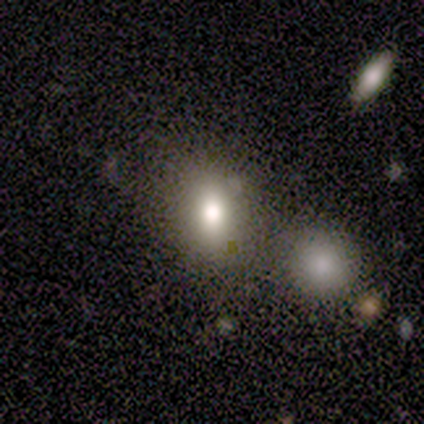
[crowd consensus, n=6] smooth-or-featured: smooth: 67% | star or artifact: 33% | featured or disk: 0%
  how-rounded: round: 75% | in between: 25% | cigar-shaped: 0%
  merging: none: 75% | merger: 25% | minor disturbance: 0% | major disturbance: 0%